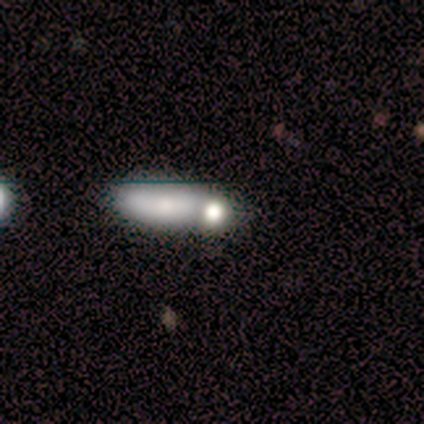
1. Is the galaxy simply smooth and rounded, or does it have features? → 60% smooth, 20% featured or disk, 20% star or artifact.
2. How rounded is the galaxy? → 67% cigar-shaped, 33% round, 0% in between.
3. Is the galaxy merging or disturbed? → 100% merger, 0% none, 0% minor disturbance, 0% major disturbance.